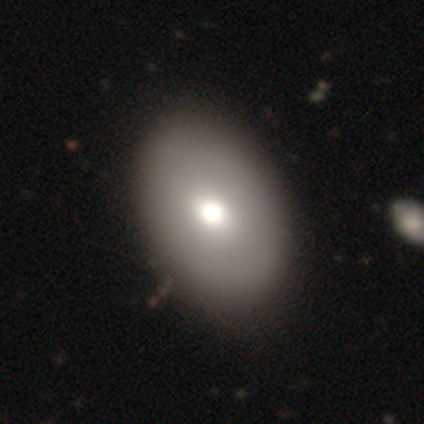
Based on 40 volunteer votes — Smooth or featured? smooth (68%)
How rounded? in between (85%)
Merging? none (51%)